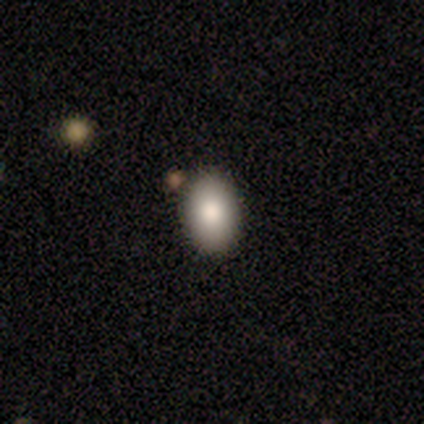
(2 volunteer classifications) This is clearly a smooth galaxy (100%). How rounded: clearly in between (100%). Merging: clearly none (100%).